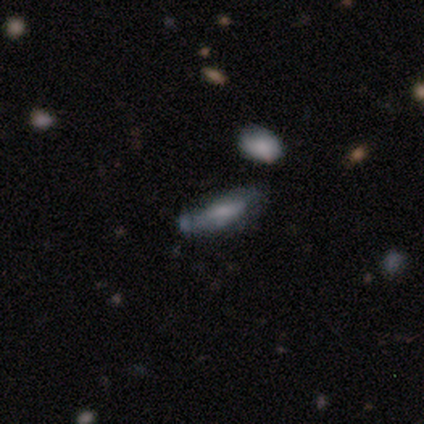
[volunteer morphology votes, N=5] Overall: smooth (60%; featured or disk 20%). How rounded: in between (67%; cigar-shaped 33%). Merging: minor disturbance (50%; none 25%).